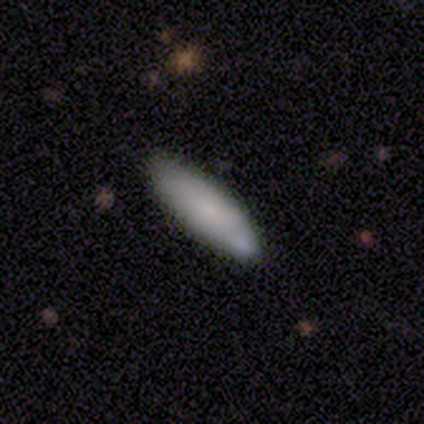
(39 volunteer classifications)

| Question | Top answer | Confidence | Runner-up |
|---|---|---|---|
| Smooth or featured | smooth | 74% | featured or disk (18%) |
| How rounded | cigar-shaped | 55% | in between (41%) |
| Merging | none | 58% | minor disturbance (28%) |